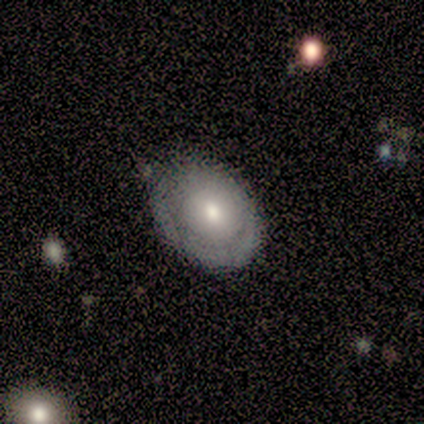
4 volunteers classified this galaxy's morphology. Q: Smooth or featured?
A: smooth (75%); runner-up: featured or disk (25%)
Q: How rounded?
A: in between (67%); runner-up: round (33%)
Q: Merging?
A: none (75%); runner-up: minor disturbance (25%)